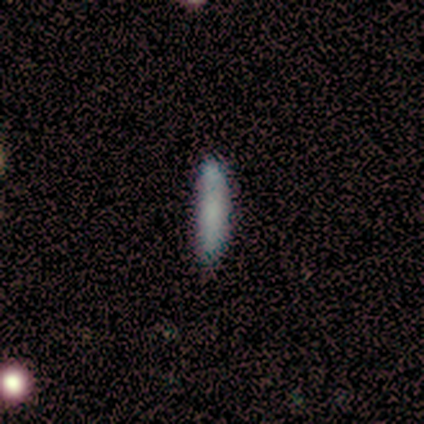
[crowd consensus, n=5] Smooth or featured: smooth — 80% (featured or disk — 20%)
How rounded: cigar-shaped — 100%
Merging: none — 80% (minor disturbance — 20%)